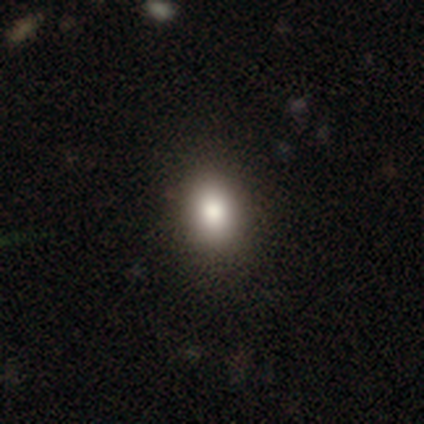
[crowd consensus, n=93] Smooth or featured?
  - smooth: 75% *
  - star or artifact: 15%
  - featured or disk: 10%
How rounded?
  - round: 50% *
  - in between: 49%
  - cigar-shaped: 1%
Merging?
  - none: 85% *
  - minor disturbance: 14%
  - major disturbance: 1%
  - merger: 0%